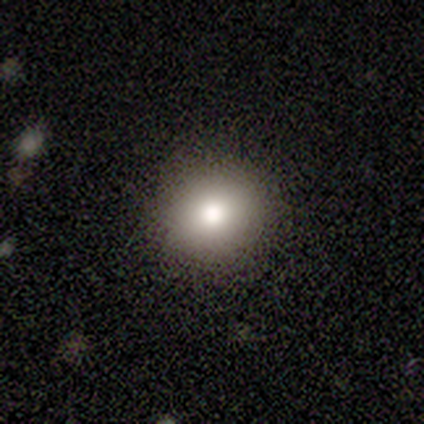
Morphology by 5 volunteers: type=smooth (60%); roundness=round (67%); merging=none (100%).